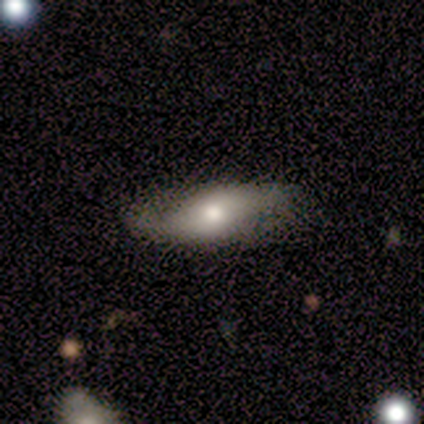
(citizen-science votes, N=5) Smooth or featured: featured or disk — 60% (smooth — 40%)
Edge-on disk: no — 100%
Bar: no — 100%
Spiral arms: yes — 100%
Spiral winding: loose — 100%
Spiral arm count: 2 — 100%
Bulge size: moderate — 67% (small — 33%)
Merging: none — 80% (minor disturbance — 20%)